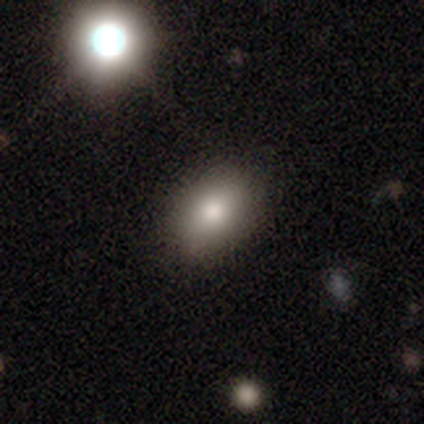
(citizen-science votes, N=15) A smooth galaxy with no disk features (80%) that is in between round and cigar-shaped (83%).

Vote fractions:
- Smooth or featured? smooth: 80% / featured or disk: 13% / star or artifact: 7%
- How rounded? in between: 83% / round: 17% / cigar-shaped: 0%
- Merging? none: 100% / minor disturbance: 0% / major disturbance: 0% / merger: 0%